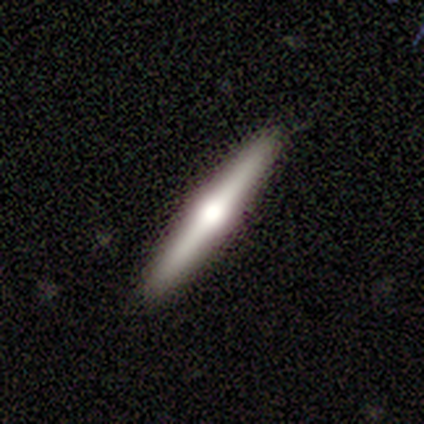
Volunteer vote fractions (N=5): Smooth or featured? featured or disk (80%)
Edge-on disk? yes (100%)
Edge-on bulge? rounded (75%)
Merging? none (100%)